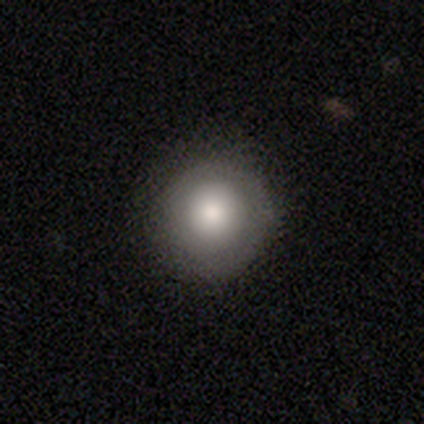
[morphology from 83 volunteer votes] A smooth galaxy with no disk features (75%) that is round (92%). Merging: none (91%).